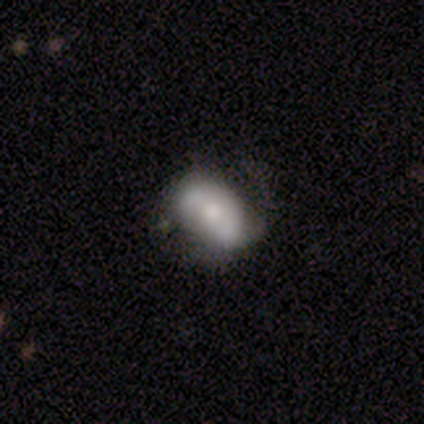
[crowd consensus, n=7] smooth-or-featured: featured or disk: 57% | smooth: 43% | star or artifact: 0%
  disk-edge-on: no: 100% | yes: 0%
    bar: no: 50% | strong: 25% | weak: 25%
    has-spiral-arms: yes: 75% | no: 25%
      spiral-winding: loose: 67% | medium: 33% | tight: 0%
      spiral-arm-count: 2: 67% | 1: 33% | 3: 0% | 4: 0% | more than 4: 0% | can't tell: 0%
    bulge-size: moderate: 50% (tied) | small: 50% (tied) | dominant: 0% | large: 0% | none: 0%
  merging: none: 71% | minor disturbance: 29% | major disturbance: 0% | merger: 0%